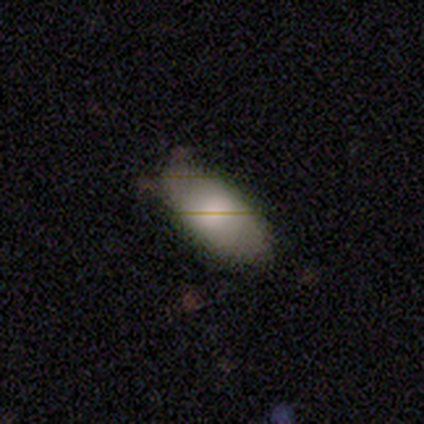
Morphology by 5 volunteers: Volunteers were most divided on "merging": none: 60%, minor disturbance: 40%, major disturbance: 0%, merger: 0%. More confident: smooth or featured — smooth (100%); how rounded — in between (100%).